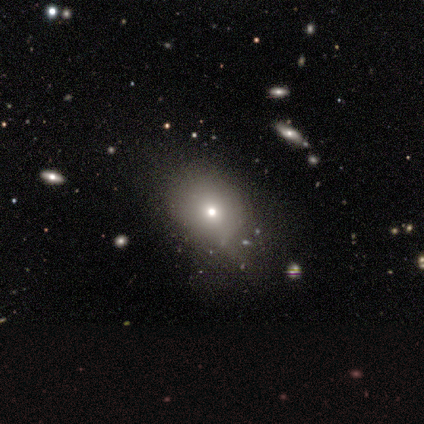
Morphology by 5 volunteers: smooth_or_featured: smooth (p=0.60) [alt: featured or disk p=0.20]
how_rounded: in between (p=0.67) [alt: round p=0.33]
merging: none (p=1.00)